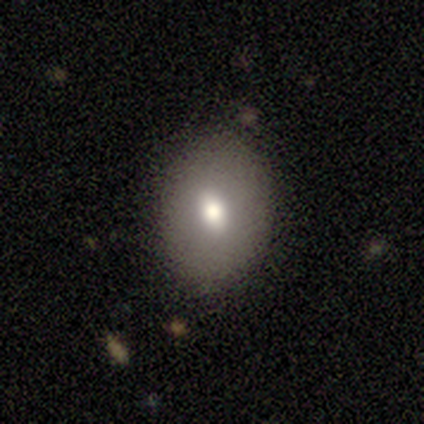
smooth 72%, featured or disk 20%, star or artifact 8%. Down the decision tree: how rounded — in between (72%); merging — none (86%).